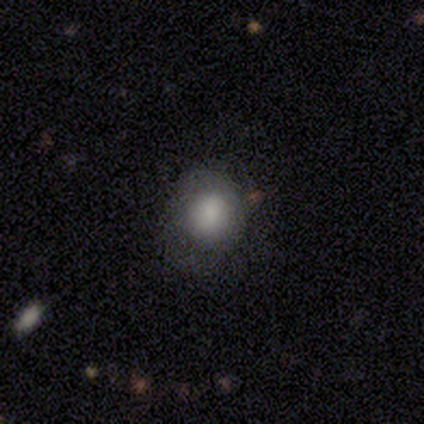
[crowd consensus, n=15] Smooth or featured: smooth — 80% (featured or disk — 20%)
How rounded: round — 92% (in between — 8%)
Merging: none — 67% (minor disturbance — 20%)